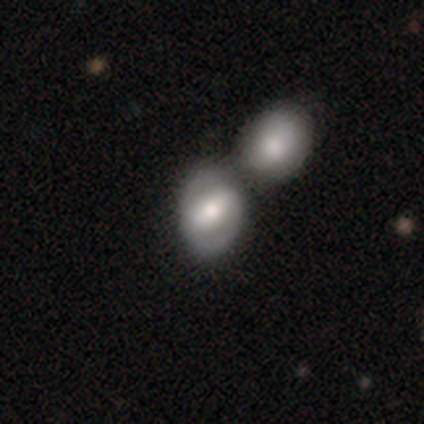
smooth-or-featured: smooth: 55% | featured or disk: 40% | star or artifact: 6%
  how-rounded: in between: 55% | round: 43% | cigar-shaped: 2%
  merging: merger: 54% | none: 27% | minor disturbance: 12% | major disturbance: 6%